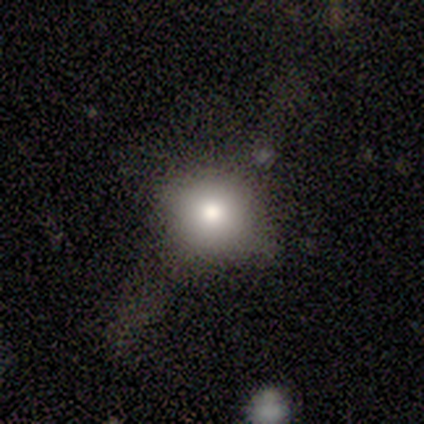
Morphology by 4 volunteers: A smooth galaxy with no disk features (75%) that is round (100%). Merging: none (67%).